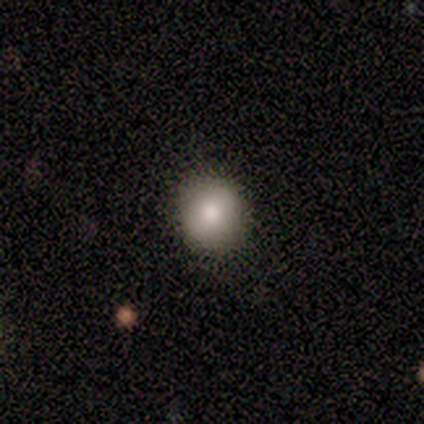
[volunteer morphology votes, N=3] Smooth or featured? 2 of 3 (67%) said smooth. How rounded? 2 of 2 (100%) said round. Merging? 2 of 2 (100%) said none.